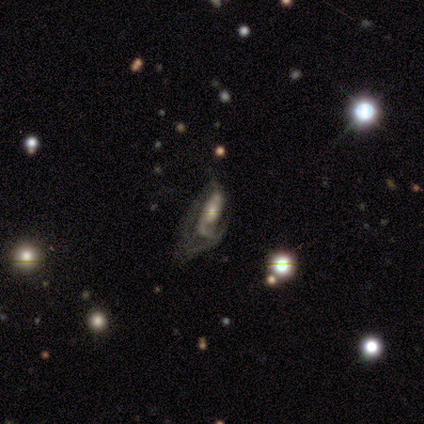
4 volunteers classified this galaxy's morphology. A featured or disk galaxy (75%) with no bar (67%), 1 (67%) tight (33%, tied with medium and loose) spiral arms (100%) and a moderate central bulge (67%). Merging: major disturbance (67%).